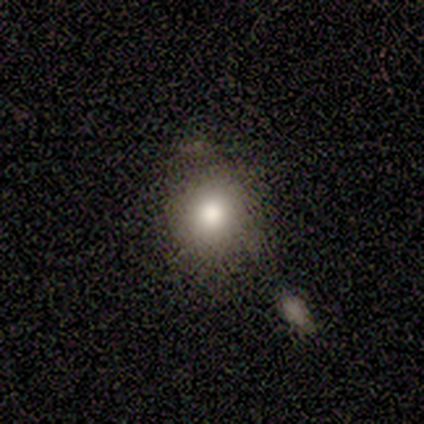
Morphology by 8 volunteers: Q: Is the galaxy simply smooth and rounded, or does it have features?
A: smooth — 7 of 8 (88%).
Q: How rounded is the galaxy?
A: round — 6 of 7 (86%).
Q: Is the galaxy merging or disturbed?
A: none — 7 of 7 (100%).